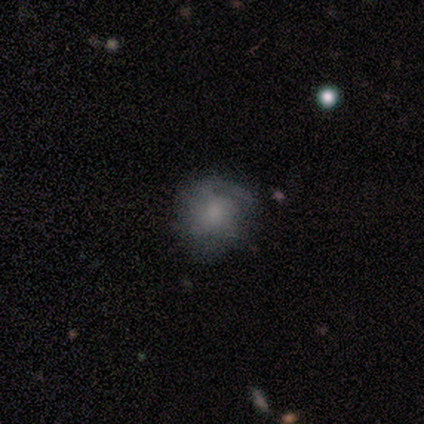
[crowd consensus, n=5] Smooth or featured? 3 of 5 (60%) said smooth. How rounded? 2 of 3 (67%) said in between. Merging? 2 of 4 (50%, tied with major disturbance) said minor disturbance.